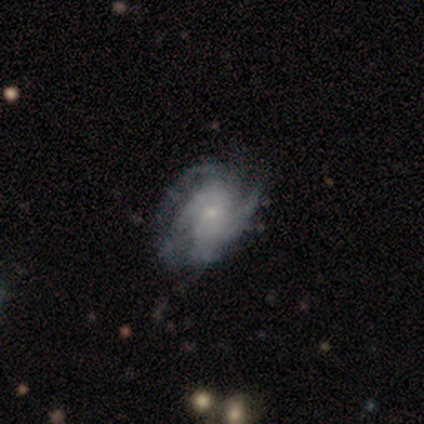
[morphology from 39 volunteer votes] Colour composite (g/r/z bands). It shows a featured or disk galaxy (87%) with no bar (79%), tight (48%) spiral arms (94%) and a small central bulge (85%). Merging: none (51%).